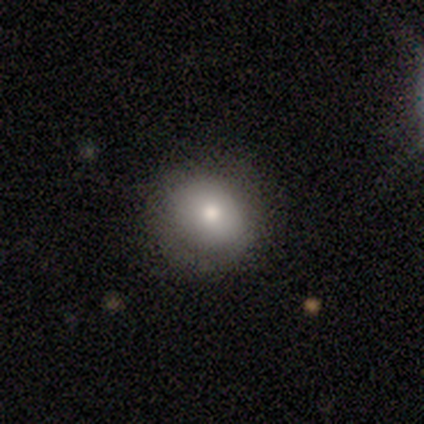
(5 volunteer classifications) smooth 100%, featured or disk 0%, star or artifact 0%. Down the decision tree: how rounded — round (60%); merging — none (60%).